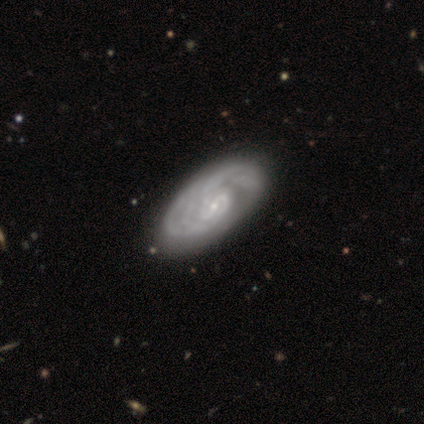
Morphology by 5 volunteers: This is clearly a featured or disk galaxy (100%). It is clearly not viewed edge-on (100%). Bar: likely no (60%). Spiral arm pattern: clearly yes (100%). Spiral arm count: marginally 3 (40%). Spiral winding: clearly tight (80%). Central bulge: clearly small (80%). Merging: clearly none (80%).